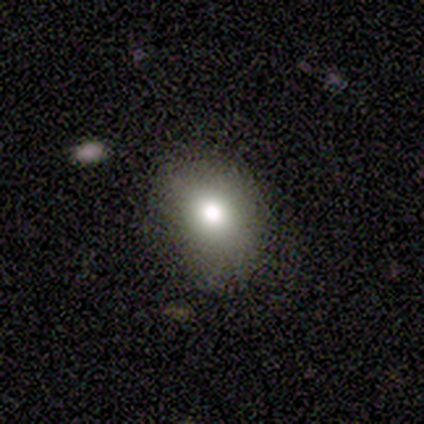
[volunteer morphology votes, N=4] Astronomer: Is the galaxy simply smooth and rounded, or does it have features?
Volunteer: smooth — 50%, tied with featured or disk at 50%.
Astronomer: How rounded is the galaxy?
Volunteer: round — 50%, tied with in between at 50%.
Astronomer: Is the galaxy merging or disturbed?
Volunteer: none — 100%.